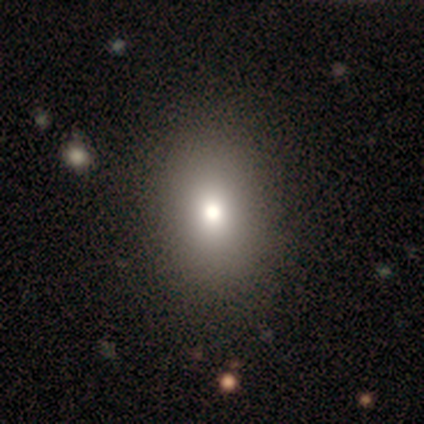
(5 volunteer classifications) Overall: smooth (60%; featured or disk 20%). How rounded: round (33%, tied with in between and cigar-shaped). Merging: none (75%).